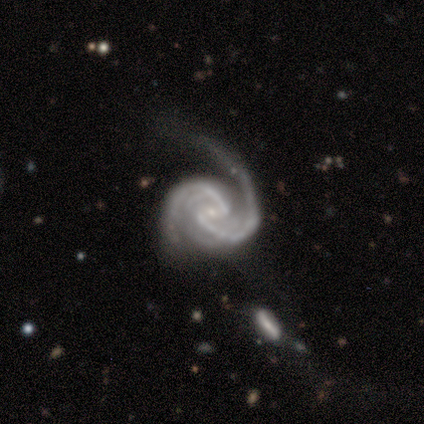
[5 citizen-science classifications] Smooth or featured? featured or disk (100%)
Edge-on disk? no (100%)
Bar? weak (60%)
Spiral arms? yes (100%)
Spiral winding? medium (80%)
Spiral arm count? 2 (80%)
Bulge size? small (100%)
Merging? none (40%, tied with major disturbance)